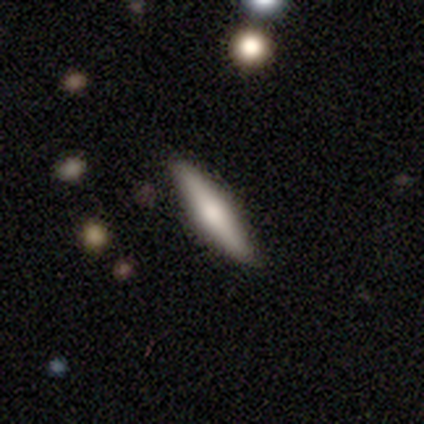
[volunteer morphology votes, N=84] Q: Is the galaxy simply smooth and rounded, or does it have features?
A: featured or disk — 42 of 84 (50%).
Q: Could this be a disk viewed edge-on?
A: yes — 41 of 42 (98%).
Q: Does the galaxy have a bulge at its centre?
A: rounded — 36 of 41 (88%).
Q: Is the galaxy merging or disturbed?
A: none — 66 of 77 (86%).